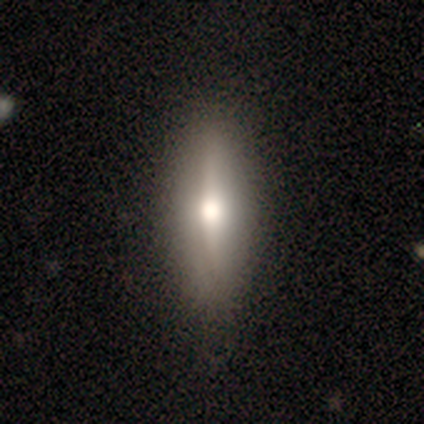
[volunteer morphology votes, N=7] smooth-or-featured: featured or disk: 86% | smooth: 14% | star or artifact: 0%
  disk-edge-on: yes: 100% | no: 0%
    edge-on-bulge: rounded: 67% | boxy: 33% | none: 0%
  merging: none: 86% | minor disturbance: 14% | major disturbance: 0% | merger: 0%